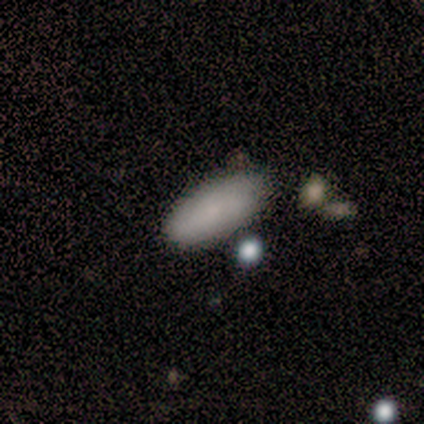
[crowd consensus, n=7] smooth 86%, featured or disk 14%, star or artifact 0%. Down the decision tree: how rounded — in between (67%); merging — none (71%).